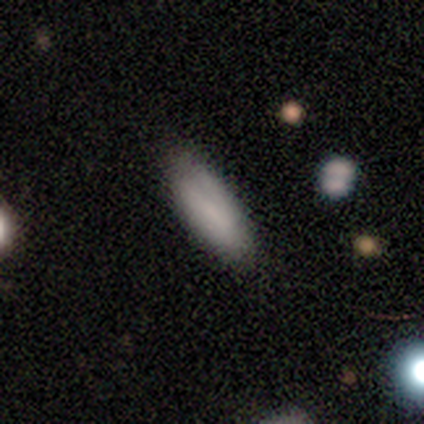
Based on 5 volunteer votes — Smooth or featured?
  - smooth: 100% *
  - featured or disk: 0%
  - star or artifact: 0%
How rounded?
  - cigar-shaped: 60% *
  - in between: 40%
  - round: 0%
Merging?
  - none: 80% *
  - major disturbance: 20%
  - minor disturbance: 0%
  - merger: 0%